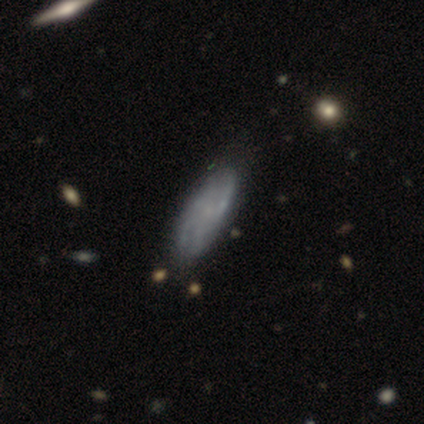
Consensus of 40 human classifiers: This is possibly a featured or disk galaxy (55%). It is clearly not viewed edge-on (86%). Bar: clearly no (89%). Spiral arm pattern: possibly yes (53%). Spiral arm count: likely can't tell (60%). Spiral winding: likely tight (60%). Central bulge: possibly small (53%). Merging: possibly none (54%).